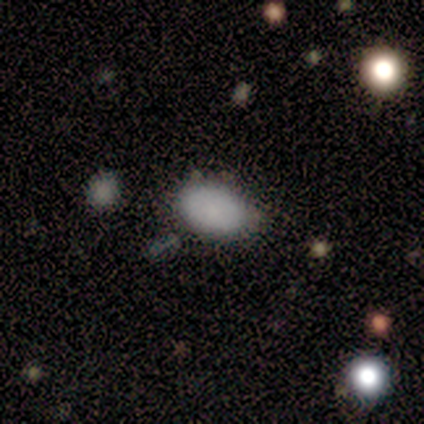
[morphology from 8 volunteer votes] This appears to be a smooth galaxy with no disk features (100%) that is in between round and cigar-shaped (100%). Merging: none (50%, tied with minor disturbance).